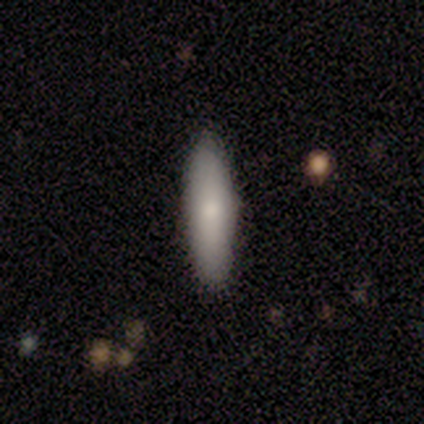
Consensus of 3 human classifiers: smooth-or-featured: smooth: 100% | featured or disk: 0% | star or artifact: 0%
  how-rounded: cigar-shaped: 67% | in between: 33% | round: 0%
  merging: none: 100% | minor disturbance: 0% | major disturbance: 0% | merger: 0%